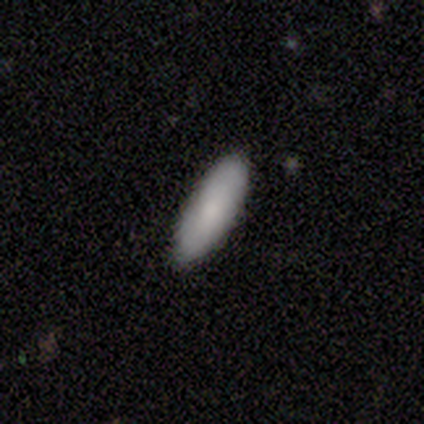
Smooth or featured?
  - smooth: 82% *
  - star or artifact: 10%
  - featured or disk: 8%
How rounded?
  - in between: 69% *
  - cigar-shaped: 31%
  - round: 0%
Merging?
  - none: 86% *
  - minor disturbance: 11%
  - major disturbance: 3%
  - merger: 0%